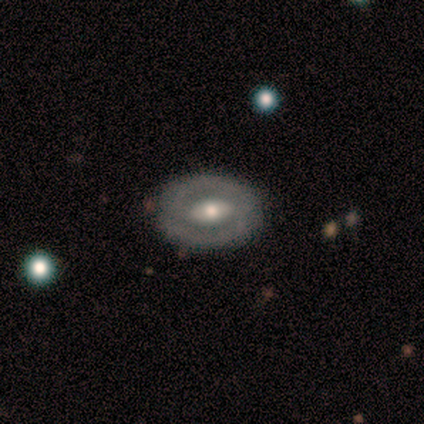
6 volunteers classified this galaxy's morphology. Smooth or featured?
  - featured or disk: 67% *
  - smooth: 33%
  - star or artifact: 0%
Edge-on disk?
  - no: 100% *
  - yes: 0%
Bar?
  - strong: 50% * (tied)
  - weak: 50% * (tied)
  - no: 0%
Spiral arms?
  - no: 75% *
  - yes: 25%
Bulge size?
  - moderate: 100% *
  - dominant: 0%
  - large: 0%
  - small: 0%
  - none: 0%
Merging?
  - none: 83% *
  - minor disturbance: 17%
  - major disturbance: 0%
  - merger: 0%